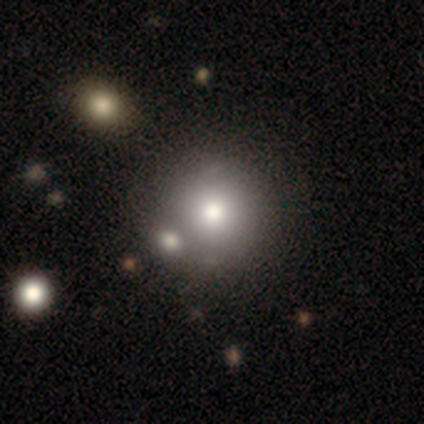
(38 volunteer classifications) A smooth galaxy with no disk features (79%) that is round (93%). Merging: none (44%).